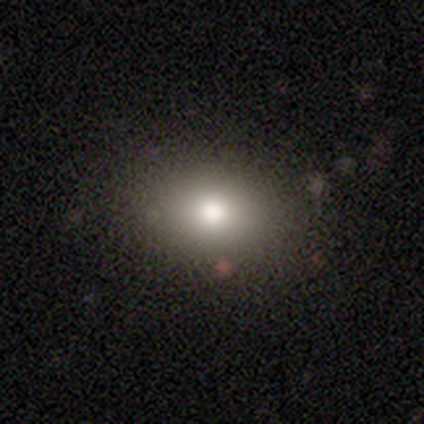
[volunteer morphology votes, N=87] smooth_or_featured: smooth (p=0.80) [alt: star or artifact p=0.14]
how_rounded: in between (p=0.53) [alt: round p=0.46]
merging: none (p=0.92) [alt: minor disturbance p=0.05]